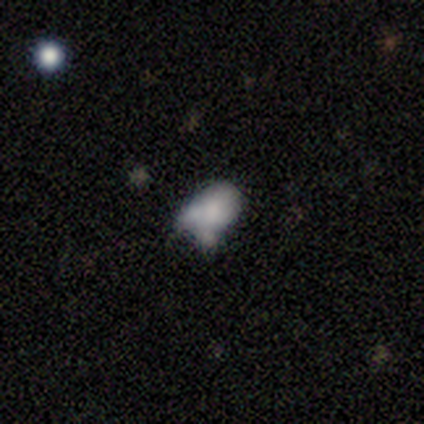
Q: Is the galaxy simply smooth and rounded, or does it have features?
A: smooth — 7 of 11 (64%).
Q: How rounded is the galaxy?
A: in between — 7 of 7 (100%).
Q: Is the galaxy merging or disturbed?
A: none — 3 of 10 (30%, tied with minor disturbance).